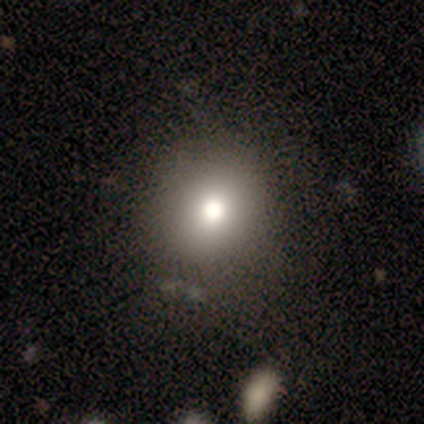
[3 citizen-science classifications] smooth_or_featured: star or artifact (p=0.67) [alt: smooth p=0.33]